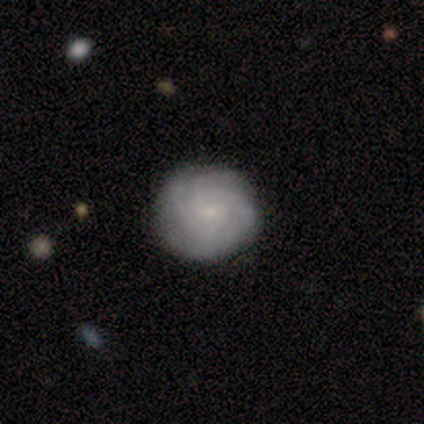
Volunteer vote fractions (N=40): Smooth or featured? 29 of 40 (72%) said featured or disk. Edge-on disk? 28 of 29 (97%) said no. Bar? 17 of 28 (61%) said no. Spiral arms? 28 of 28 (100%) said yes. Spiral winding? 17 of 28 (61%) said tight. Spiral arm count? 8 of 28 (29%, tied with can't tell) said 3. Bulge size? 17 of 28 (61%) said small. Merging? 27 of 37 (73%) said none.